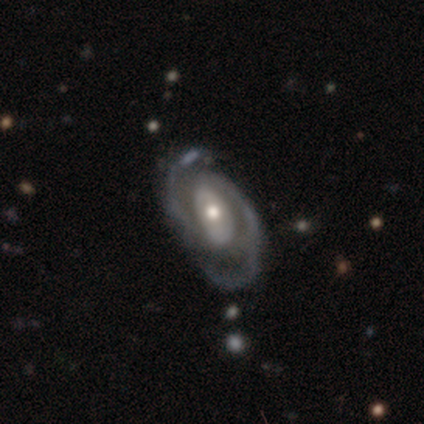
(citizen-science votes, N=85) A featured or disk galaxy (84%) with no bar (42%), 2 (86%) medium (52%) spiral arms (94%) and a moderate central bulge (65%). Merging: none (55%).